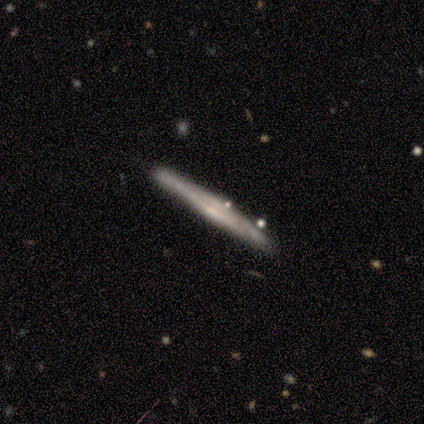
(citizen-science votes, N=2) This is clearly a featured or disk galaxy (100%). It is clearly viewed edge-on (100%). Edge-on bulge: possibly none (50%, tied with rounded). Merging: clearly none (100%).